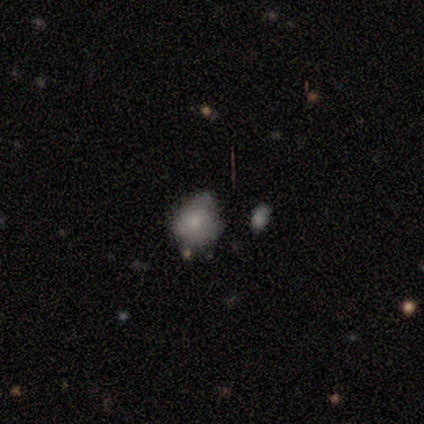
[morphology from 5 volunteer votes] smooth 60%, featured or disk 40%, star or artifact 0%. Down the decision tree: how rounded — round (67%); merging — minor disturbance (60%).